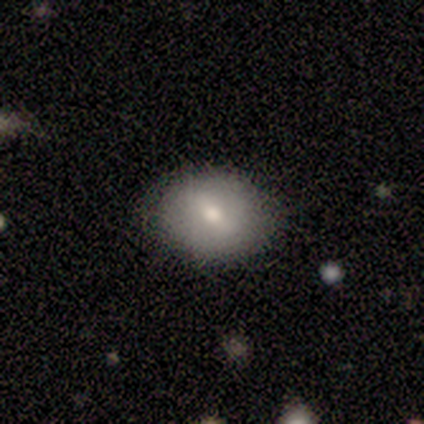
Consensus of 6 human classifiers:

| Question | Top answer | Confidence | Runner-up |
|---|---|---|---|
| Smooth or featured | smooth | 50% | tied: featured or disk (50%) |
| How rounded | in between | 100% | — |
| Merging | none | 100% | — |